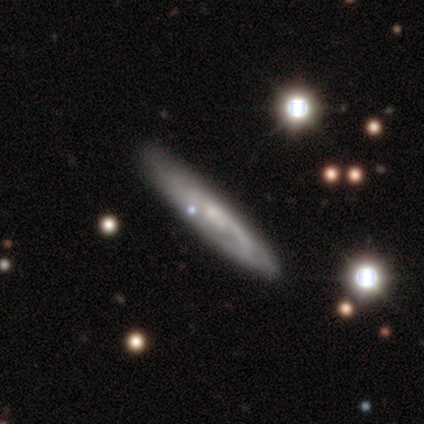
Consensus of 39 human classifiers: smooth-or-featured: featured or disk: 72% | smooth: 23% | star or artifact: 5%
  disk-edge-on: yes: 64% | no: 36%
    edge-on-bulge: none: 56% | rounded: 44% | boxy: 0%
  merging: none: 78% | minor disturbance: 19% | major disturbance: 3% | merger: 0%